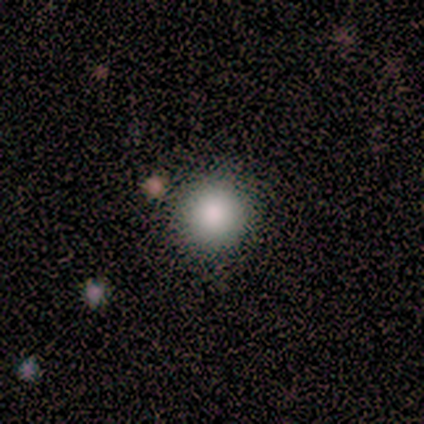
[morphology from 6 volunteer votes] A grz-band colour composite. It shows a smooth galaxy with no disk features (100%) that is round (83%). Merging: none (83%).